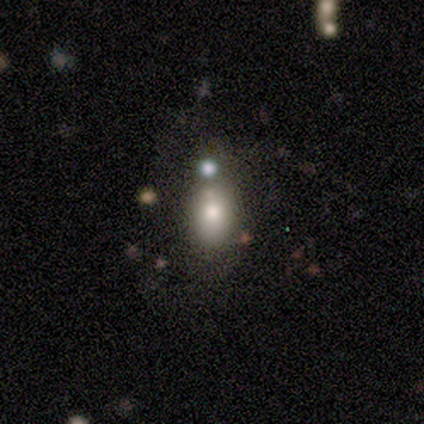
A smooth galaxy with no disk features (84%) that is in between round and cigar-shaped (71%). Merging: none (49%).